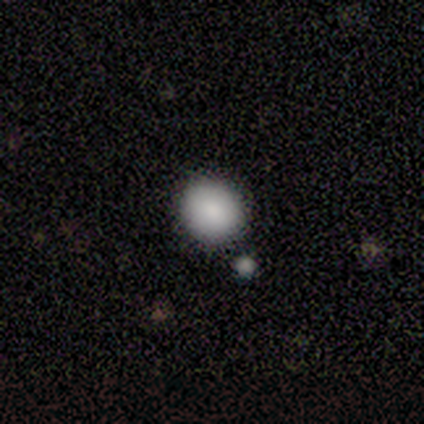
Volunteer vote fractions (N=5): Q: Smooth or featured?
A: smooth (80%); runner-up: star or artifact (20%)
Q: How rounded?
A: round (100%)
Q: Merging?
A: none (100%)